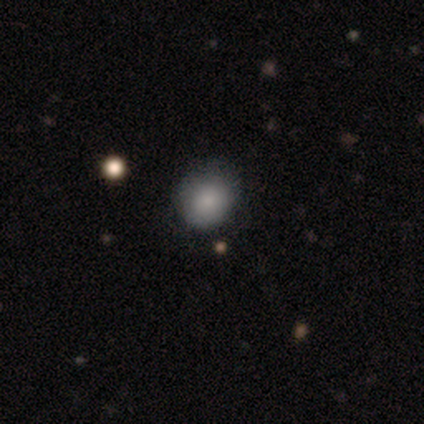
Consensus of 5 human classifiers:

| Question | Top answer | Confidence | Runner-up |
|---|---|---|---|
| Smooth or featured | smooth | 100% | — |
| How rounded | round | 80% | in between (20%) |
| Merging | none | 100% | — |